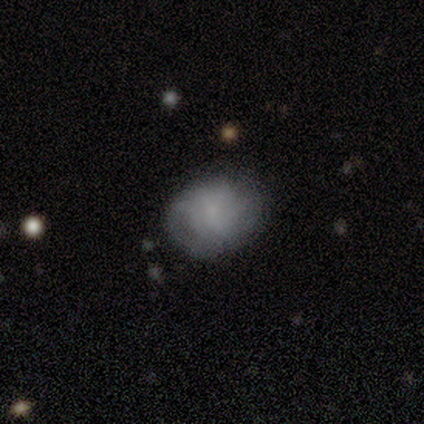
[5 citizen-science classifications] Q: Smooth or featured?
A: smooth (60%); runner-up: featured or disk (40%)
Q: How rounded?
A: in between (67%); runner-up: round (33%)
Q: Merging?
A: minor disturbance (60%); runner-up: none (40%)